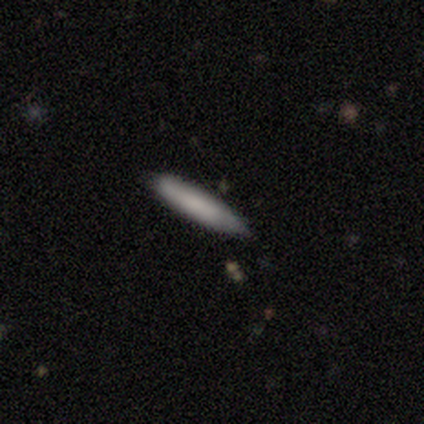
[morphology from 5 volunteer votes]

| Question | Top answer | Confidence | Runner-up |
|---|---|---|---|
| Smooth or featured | smooth | 80% | star or artifact (20%) |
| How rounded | cigar-shaped | 100% | — |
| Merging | none | 100% | — |